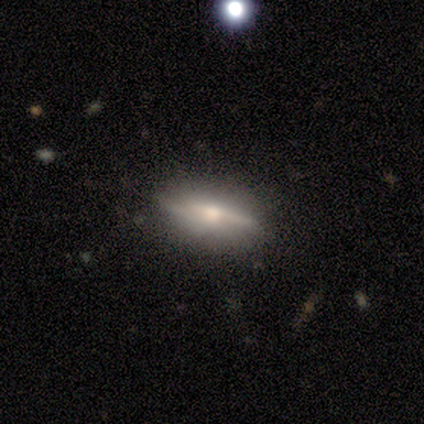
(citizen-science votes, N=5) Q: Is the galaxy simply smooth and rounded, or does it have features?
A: featured or disk — 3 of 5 (60%).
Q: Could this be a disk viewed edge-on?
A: yes — 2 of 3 (67%).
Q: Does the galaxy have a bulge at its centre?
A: rounded — 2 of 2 (100%).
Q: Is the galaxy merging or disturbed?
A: none — 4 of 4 (100%).